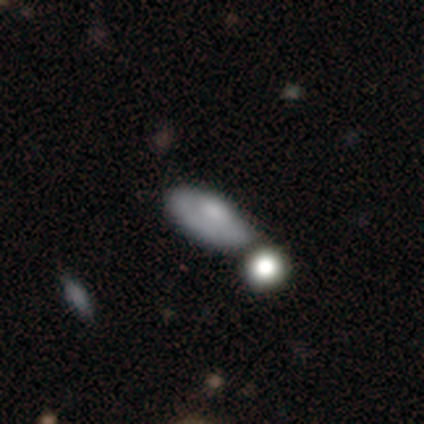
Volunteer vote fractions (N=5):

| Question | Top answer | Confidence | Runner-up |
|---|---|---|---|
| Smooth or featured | smooth | 60% | star or artifact (40%) |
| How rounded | in between | 100% | — |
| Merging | none | 33% | tied: minor disturbance (33%), merger (33%) |